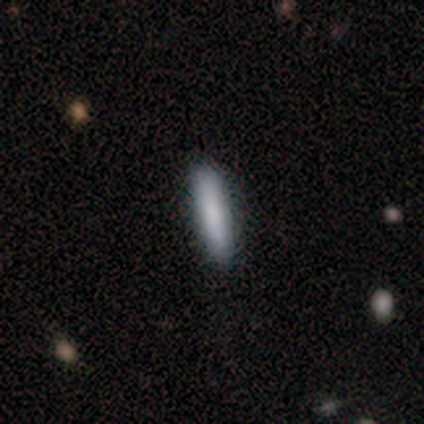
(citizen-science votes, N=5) Overall: smooth (60%; star or artifact 40%). How rounded: cigar-shaped (100%). Merging: none (100%).